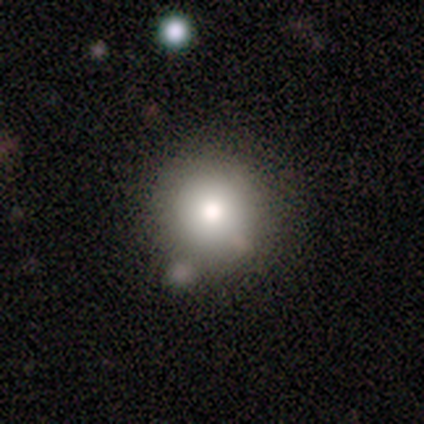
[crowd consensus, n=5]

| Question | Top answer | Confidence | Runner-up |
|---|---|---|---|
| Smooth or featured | smooth | 80% | star or artifact (20%) |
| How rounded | round | 100% | — |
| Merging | none | 75% | merger (25%) |